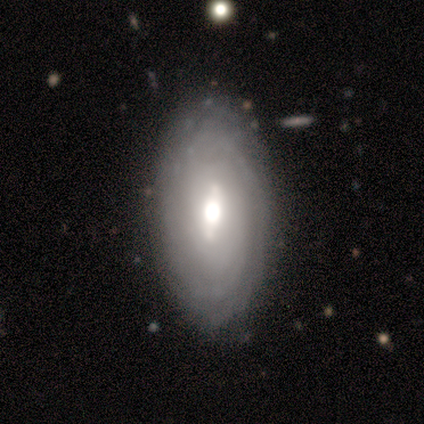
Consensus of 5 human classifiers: Smooth or featured: featured or disk — 100%
Edge-on disk: no — 80% (yes — 20%)
Bar: strong — 50% (weak — 25%)
Spiral arms: yes — 75% (no — 25%)
Spiral winding: tight — 100%
Spiral arm count: can't tell — 67% (more than 4 — 33%)
Bulge size: large — 50% (tied with moderate — 50%)
Merging: none — 80% (minor disturbance — 20%)